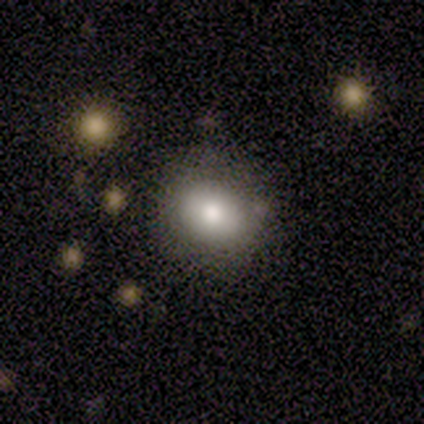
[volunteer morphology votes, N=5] Smooth or featured: smooth — 60% (featured or disk — 40%)
How rounded: in between — 67% (round — 33%)
Merging: none — 60% (minor disturbance — 40%)